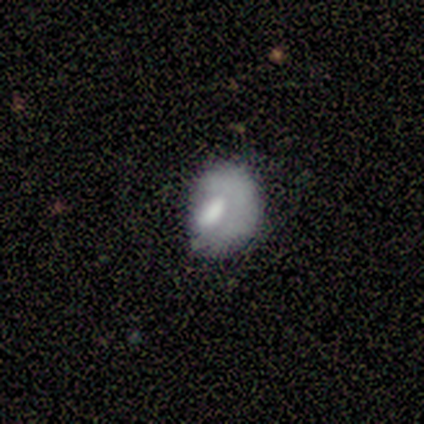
Overall: smooth (43%; featured or disk 29%). How rounded: round (67%; in between 33%). Merging: none (60%; major disturbance 20%).